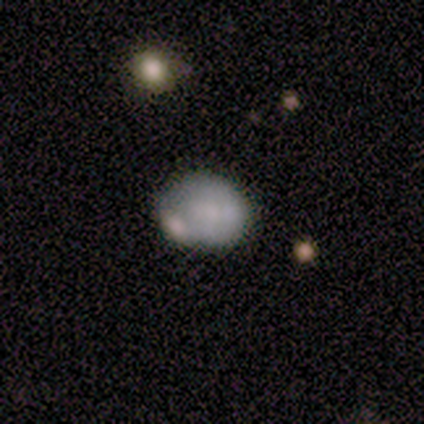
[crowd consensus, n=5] smooth-or-featured: smooth: 100% | featured or disk: 0% | star or artifact: 0%
  how-rounded: round: 60% | in between: 40% | cigar-shaped: 0%
  merging: none: 40% (tied) | merger: 40% (tied) | major disturbance: 20% | minor disturbance: 0%